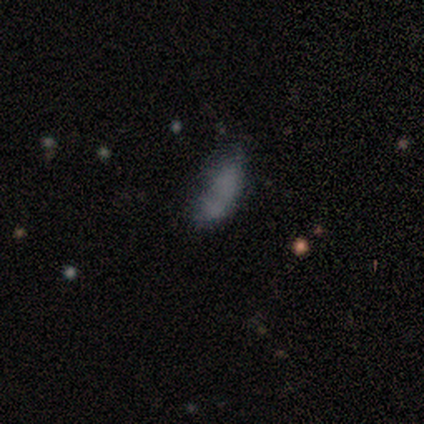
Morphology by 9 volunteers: A smooth galaxy with no disk features (100%) that is in between round and cigar-shaped (78%). Merging: none (44%).